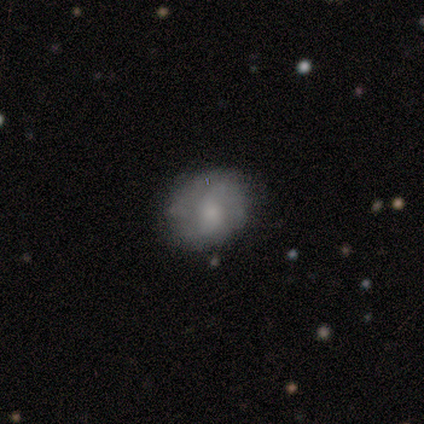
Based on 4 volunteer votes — Smooth or featured: smooth — 50% (tied with featured or disk — 50%)
How rounded: round — 100%
Merging: minor disturbance — 50% (none — 25%)